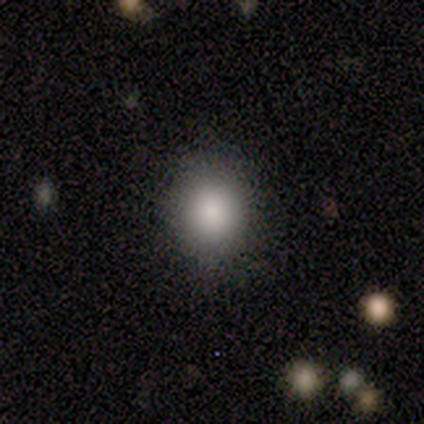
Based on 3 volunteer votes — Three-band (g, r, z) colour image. It shows a smooth galaxy with no disk features (67%) that is round (50%, tied with in between). Merging: none (33%, tied with minor disturbance and merger).